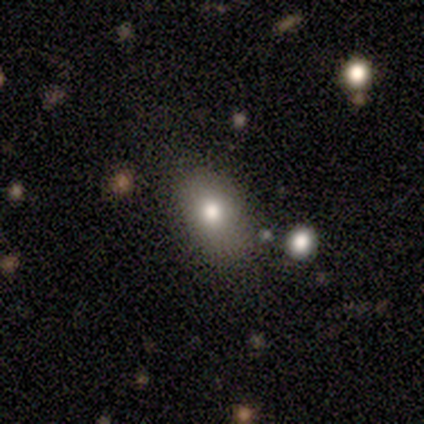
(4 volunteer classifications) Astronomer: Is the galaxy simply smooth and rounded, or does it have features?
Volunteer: smooth — 100%.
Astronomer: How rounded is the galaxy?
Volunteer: in between — 75%.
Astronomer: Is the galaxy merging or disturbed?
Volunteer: none — 75%.